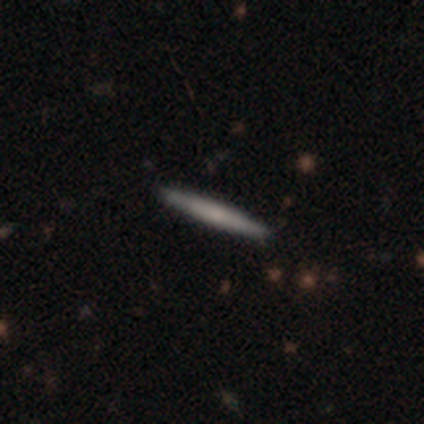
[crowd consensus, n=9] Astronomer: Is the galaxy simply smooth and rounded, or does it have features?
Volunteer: smooth — 67%.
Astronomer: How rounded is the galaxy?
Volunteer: cigar-shaped — 100%.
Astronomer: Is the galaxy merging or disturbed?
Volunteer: none — 89%.